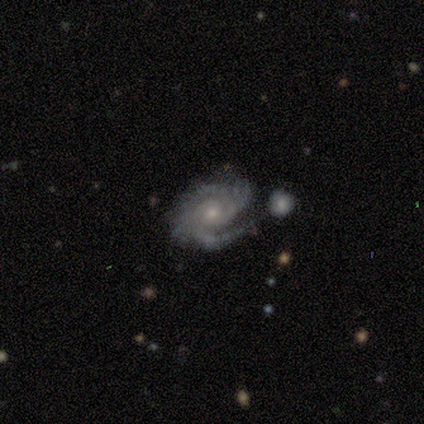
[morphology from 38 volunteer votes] A featured or disk galaxy (100%) with no bar (81%), tight (67%) spiral arms (97%) and a small central bulge (73%).

Vote fractions:
- Smooth or featured? featured or disk: 100% / smooth: 0% / star or artifact: 0%
- Edge-on disk? no: 97% / yes: 3%
- Bar? no: 81% / weak: 14% / strong: 5%
- Spiral arms? yes: 97% / no: 3%
- Spiral winding? tight: 67% / medium: 28% / loose: 6%
- Spiral arm count? can't tell: 28% / 2: 25% / 4: 19% / 3: 11% / more than 4: 11% / 1: 6%
- Bulge size? small: 73% / moderate: 19% / none: 5% / large: 3% / dominant: 0%
- Merging? none: 42% / minor disturbance: 34% / merger: 16% / major disturbance: 8%